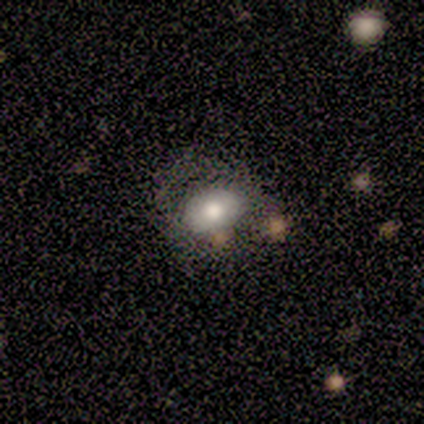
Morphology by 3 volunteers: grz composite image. It shows a smooth galaxy with no disk features (100%) that is round (100%). Merging: none (33%, tied with minor disturbance and merger).